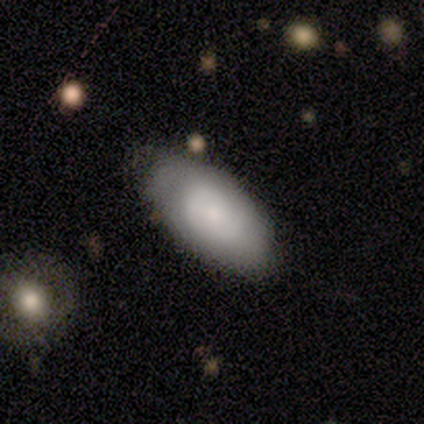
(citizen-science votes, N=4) smooth_or_featured: smooth (p=0.50) [tied with: featured or disk p=0.50]
how_rounded: in between (p=1.00)
merging: none (p=0.75) [alt: minor disturbance p=0.25]